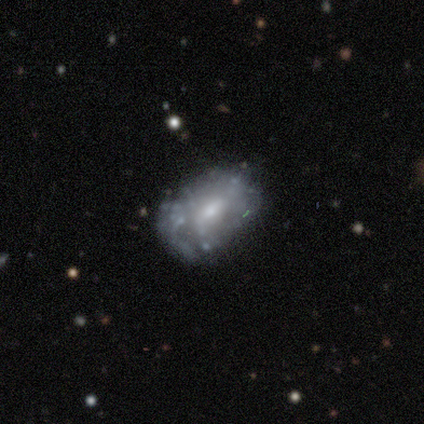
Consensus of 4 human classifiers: Overall: featured or disk (50%; smooth 25%). Edge-on disk: no (100%). Bar: no (100%). Spiral arms: no (100%). Bulge size: moderate (50%, tied with small). Merging: minor disturbance (67%; merger 33%).